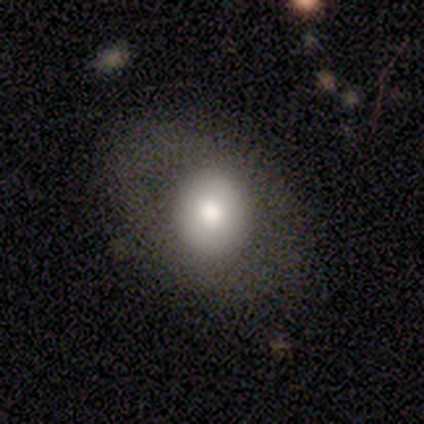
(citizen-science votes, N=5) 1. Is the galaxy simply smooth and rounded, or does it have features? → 60% smooth, 40% featured or disk, 0% star or artifact.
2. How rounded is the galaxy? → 67% in between, 33% round, 0% cigar-shaped.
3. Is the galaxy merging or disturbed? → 60% minor disturbance, 20% none, 20% major disturbance, 0% merger.